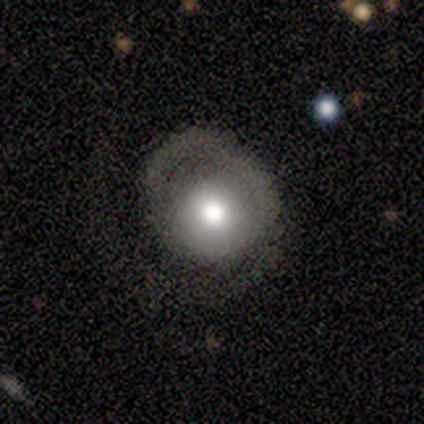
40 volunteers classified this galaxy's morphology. type=smooth (50%); roundness=round (100%); merging=major disturbance (41%).